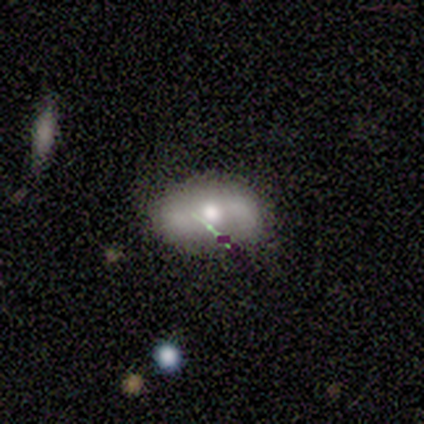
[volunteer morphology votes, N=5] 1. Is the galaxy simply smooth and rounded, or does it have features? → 40% smooth (tied), 40% star or artifact (tied), 20% featured or disk.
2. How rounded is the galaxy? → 50% round (tied), 50% in between (tied), 0% cigar-shaped.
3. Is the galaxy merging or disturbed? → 67% none, 33% minor disturbance, 0% major disturbance, 0% merger.